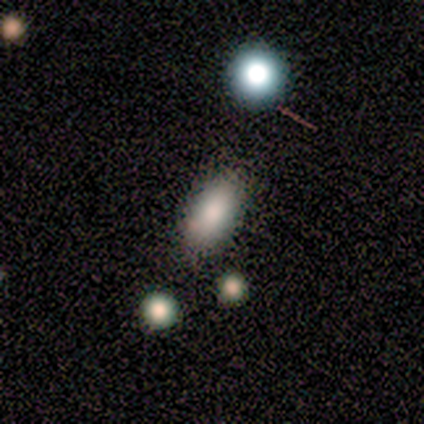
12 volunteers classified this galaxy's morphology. Overall: smooth (92%). How rounded: in between (91%). Merging: none (100%).